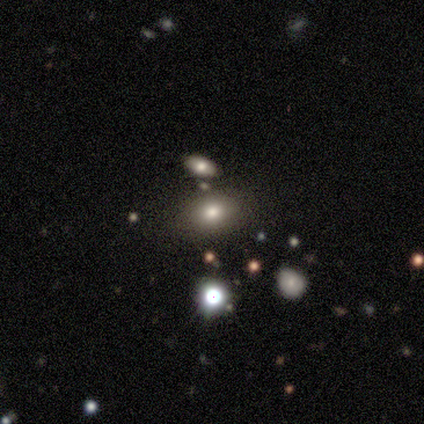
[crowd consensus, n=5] A smooth galaxy with no disk features (80%) that is in between round and cigar-shaped (75%).

Vote fractions:
- Smooth or featured? smooth: 80% / featured or disk: 20% / star or artifact: 0%
- How rounded? in between: 75% / round: 25% / cigar-shaped: 0%
- Merging? none: 60% / merger: 40% / minor disturbance: 0% / major disturbance: 0%